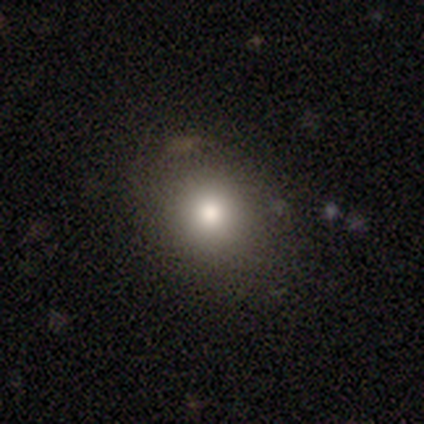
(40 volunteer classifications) This appears to be a smooth galaxy with no disk features (72%) that is round (62%). Merging: none (94%).